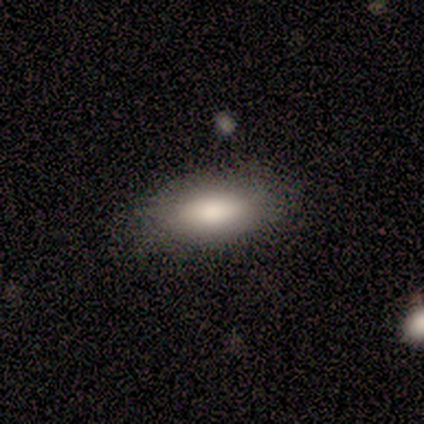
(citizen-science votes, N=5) Smooth or featured? 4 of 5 (80%) said smooth. How rounded? 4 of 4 (100%) said in between. Merging? 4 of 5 (80%) said none.